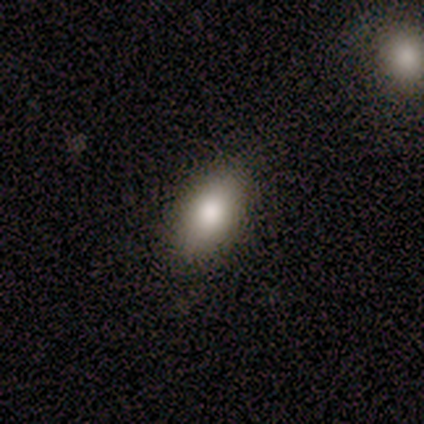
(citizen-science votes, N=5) Q: Smooth or featured?
A: smooth (100%)
Q: How rounded?
A: in between (100%)
Q: Merging?
A: none (100%)